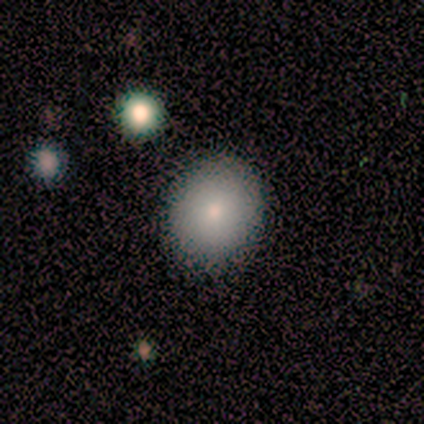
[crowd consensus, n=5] Smooth or featured?
  - smooth: 80% *
  - star or artifact: 20%
  - featured or disk: 0%
How rounded?
  - round: 50% * (tied)
  - in between: 50% * (tied)
  - cigar-shaped: 0%
Merging?
  - none: 100% *
  - minor disturbance: 0%
  - major disturbance: 0%
  - merger: 0%